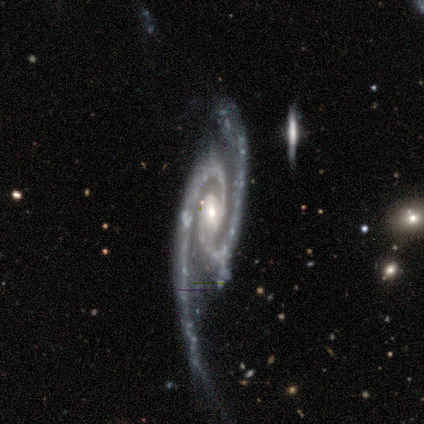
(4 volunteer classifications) Smooth or featured? 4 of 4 (100%) said featured or disk. Edge-on disk? 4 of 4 (100%) said no. Bar? 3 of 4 (75%) said weak. Spiral arms? 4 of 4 (100%) said yes. Spiral winding? 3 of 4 (75%) said tight. Spiral arm count? 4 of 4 (100%) said 2. Bulge size? 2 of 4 (50%) said moderate. Merging? 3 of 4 (75%) said major disturbance.